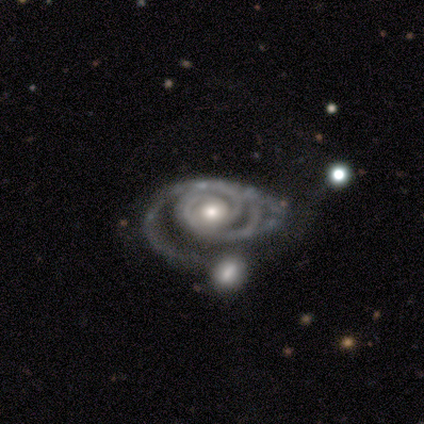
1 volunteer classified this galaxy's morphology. Smooth or featured? 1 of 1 (100%) said featured or disk. Edge-on disk? 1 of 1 (100%) said no. Bar? 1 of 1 (100%) said no. Spiral arms? 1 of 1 (100%) said yes. Spiral winding? 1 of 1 (100%) said tight. Spiral arm count? 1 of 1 (100%) said 2. Bulge size? 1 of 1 (100%) said moderate. Merging? 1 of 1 (100%) said minor disturbance.